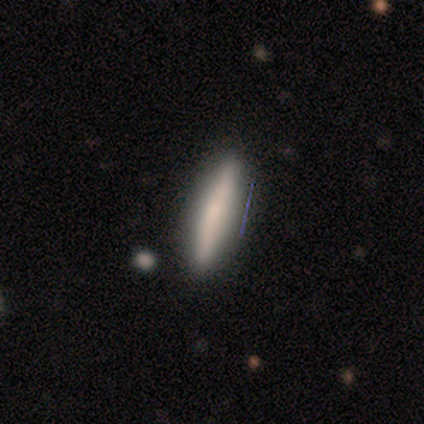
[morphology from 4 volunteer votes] A smooth galaxy with no disk features (50%, tied with featured or disk) that is cigar-shaped (100%). Merging: none (100%).